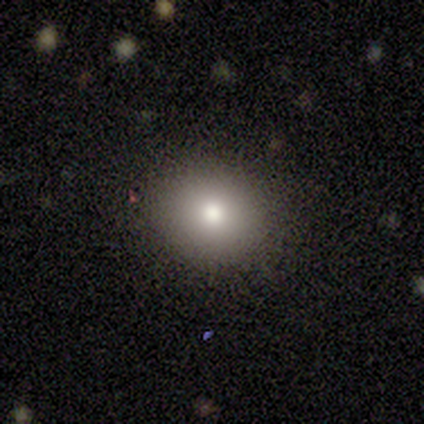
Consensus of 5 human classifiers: Volunteers were most divided on "smooth or featured": smooth: 60%, star or artifact: 40%, featured or disk: 0%. More confident: merging — none (100%); how rounded — round (67%).